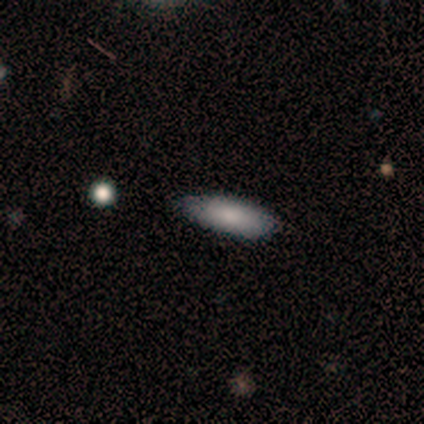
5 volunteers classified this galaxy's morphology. smooth_or_featured: smooth (p=1.00)
how_rounded: in between (p=0.60) [alt: cigar-shaped p=0.40]
merging: none (p=0.60) [alt: minor disturbance p=0.40]